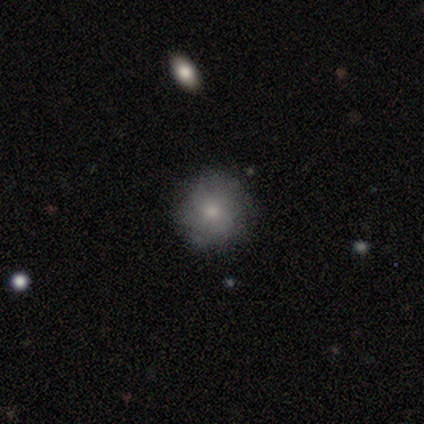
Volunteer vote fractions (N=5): Smooth or featured: featured or disk — 60% (smooth — 40%)
Edge-on disk: no — 67% (yes — 33%)
Bar: no — 100%
Spiral arms: no — 100%
Bulge size: moderate — 50% (tied with small — 50%)
Merging: none — 80% (minor disturbance — 20%)